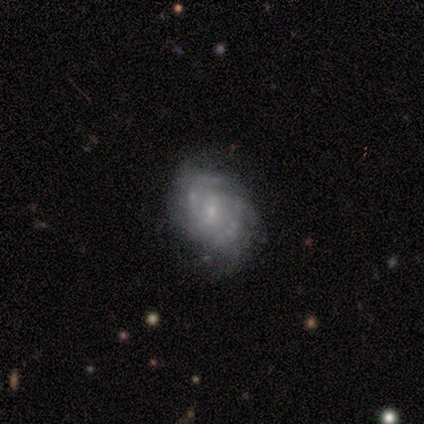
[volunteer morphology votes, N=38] Smooth or featured? 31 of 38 (82%) said featured or disk. Edge-on disk? 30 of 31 (97%) said no. Bar? 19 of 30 (63%) said no. Spiral arms? 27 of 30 (90%) said yes. Spiral winding? 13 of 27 (48%) said medium. Spiral arm count? 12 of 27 (44%) said 2. Bulge size? 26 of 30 (87%) said small. Merging? 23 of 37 (62%) said none.